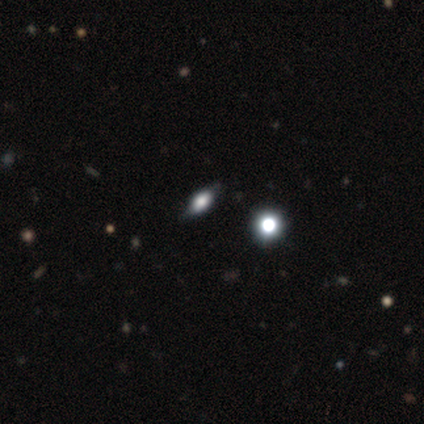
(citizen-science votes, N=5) smooth-or-featured: smooth: 40% (tied) | star or artifact: 40% (tied) | featured or disk: 20%
  how-rounded: round: 50% (tied) | in between: 50% (tied) | cigar-shaped: 0%
  merging: none: 100% | minor disturbance: 0% | major disturbance: 0% | merger: 0%